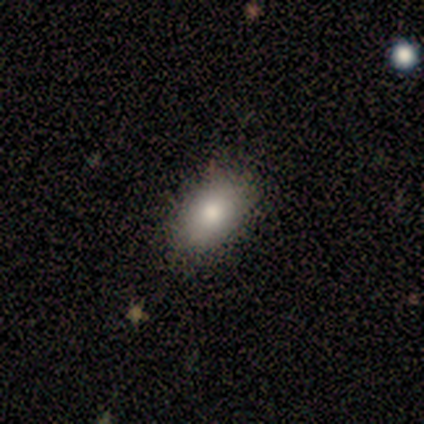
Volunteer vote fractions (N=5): This is clearly a smooth galaxy (80%). How rounded: clearly in between (100%). Merging: likely none (60%).